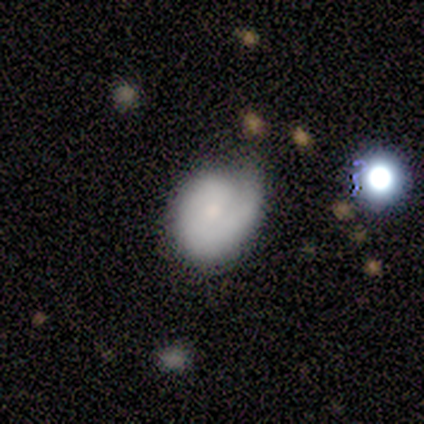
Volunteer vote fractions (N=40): Volunteers were most divided on "bulge size": moderate: 50%, small: 41%, dominant: 5%, none: 5%, large: 0%. More confident: edge-on disk — no (96%); spiral arms — yes (82%); bar — no (73%); spiral arm count — 1 (67%); spiral winding — tight (61%); smooth or featured — featured or disk (57%); merging — none (50%).